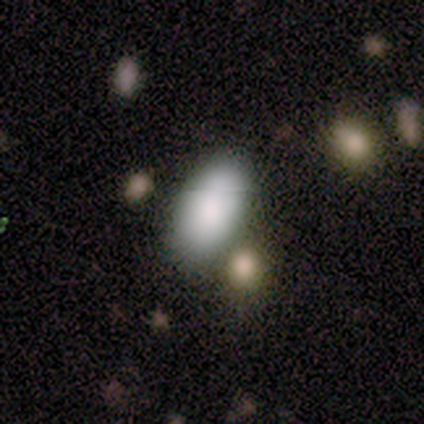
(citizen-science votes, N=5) Smooth or featured?
  - smooth: 100% *
  - featured or disk: 0%
  - star or artifact: 0%
How rounded?
  - in between: 100% *
  - round: 0%
  - cigar-shaped: 0%
Merging?
  - none: 60% *
  - minor disturbance: 20%
  - major disturbance: 20%
  - merger: 0%